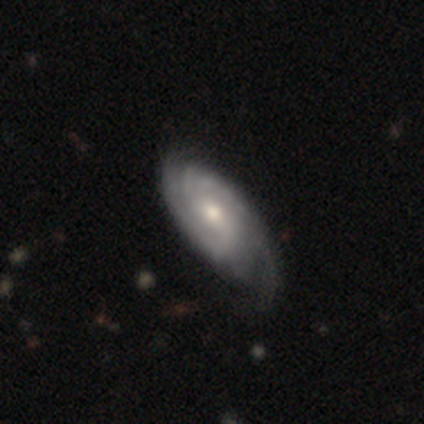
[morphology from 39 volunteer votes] Smooth or featured?
  - featured or disk: 85% *
  - smooth: 10%
  - star or artifact: 5%
Edge-on disk?
  - no: 97% *
  - yes: 3%
Bar?
  - no: 56% *
  - weak: 31%
  - strong: 12%
Spiral arms?
  - yes: 97% *
  - no: 3%
Spiral winding?
  - tight: 55% *
  - medium: 35%
  - loose: 10%
Spiral arm count?
  - 2: 48% *
  - can't tell: 29%
  - 1: 10%
  - 4: 6%
  - 3: 3%
  - more than 4: 3%
Bulge size?
  - moderate: 69% *
  - small: 25%
  - large: 6%
  - dominant: 0%
  - none: 0%
Merging?
  - none: 41% *
  - major disturbance: 14%
  - minor disturbance: 11%
  - merger: 0%